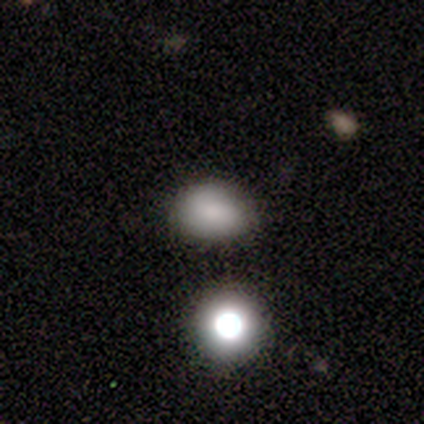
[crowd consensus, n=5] Smooth or featured? smooth (100%)
How rounded? in between (60%)
Merging? none (100%)